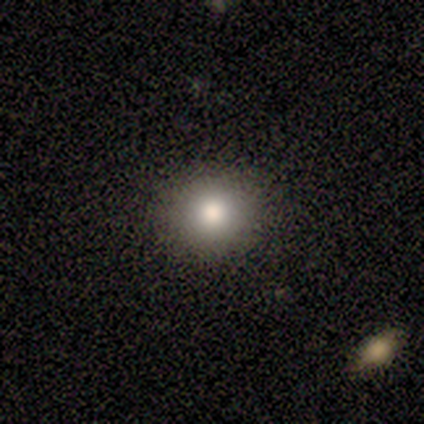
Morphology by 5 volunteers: This appears to be a smooth galaxy with no disk features (80%) that is round (75%). Merging: none (100%).